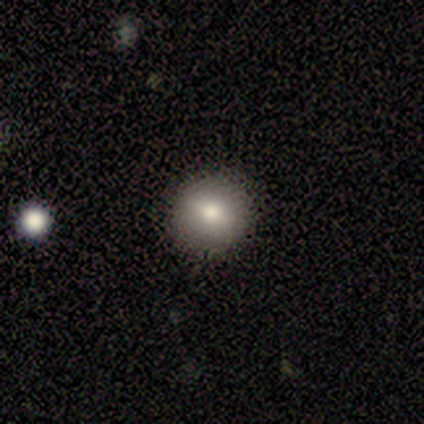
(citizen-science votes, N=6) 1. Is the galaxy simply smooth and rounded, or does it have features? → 100% smooth, 0% featured or disk, 0% star or artifact.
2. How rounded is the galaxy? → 100% round, 0% in between, 0% cigar-shaped.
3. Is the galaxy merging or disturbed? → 100% none, 0% minor disturbance, 0% major disturbance, 0% merger.